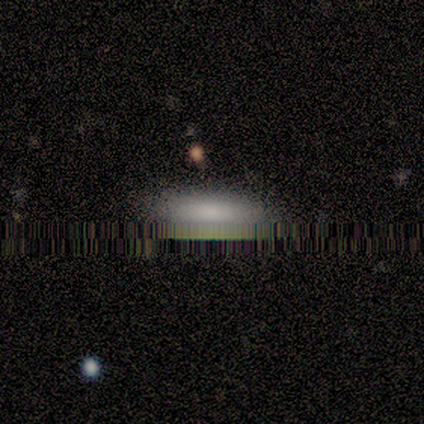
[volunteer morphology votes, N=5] This is clearly a smooth galaxy (80%). How rounded: likely in between (75%). Merging: clearly none (100%).